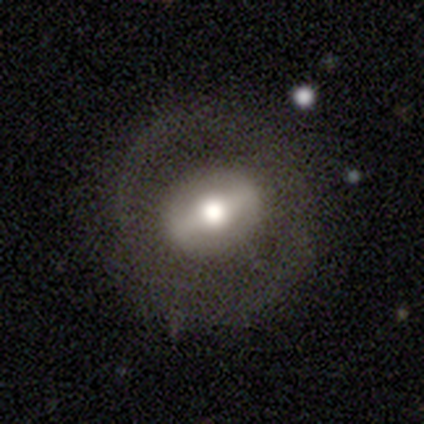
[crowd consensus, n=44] smooth_or_featured: featured or disk (p=0.57) [alt: smooth p=0.32]
disk_edge_on: no (p=0.84) [alt: yes p=0.16]
bar: weak (p=0.48) [alt: strong p=0.43]
has_spiral_arms: no (p=0.81) [alt: yes p=0.19]
bulge_size: moderate (p=0.67) [alt: large p=0.24]
merging: none (p=0.79) [alt: minor disturbance p=0.13]